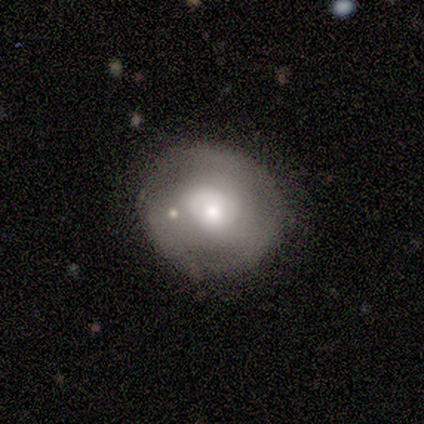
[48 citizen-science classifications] This is possibly a smooth galaxy (54%). How rounded: clearly round (88%). Merging: likely none (73%).